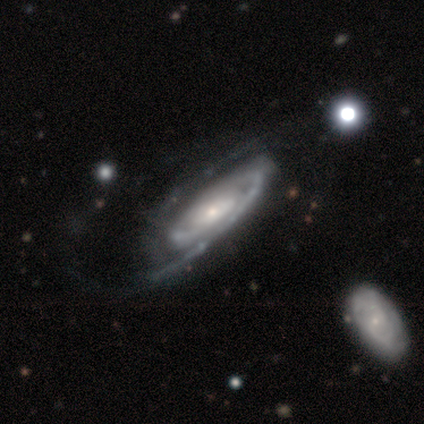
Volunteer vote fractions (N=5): Smooth or featured? featured or disk (100%)
Edge-on disk? no (100%)
Bar? no (60%)
Spiral arms? yes (100%)
Spiral winding? tight (60%)
Spiral arm count? 2 (100%)
Bulge size? moderate (40%, tied with small)
Merging? none (60%)